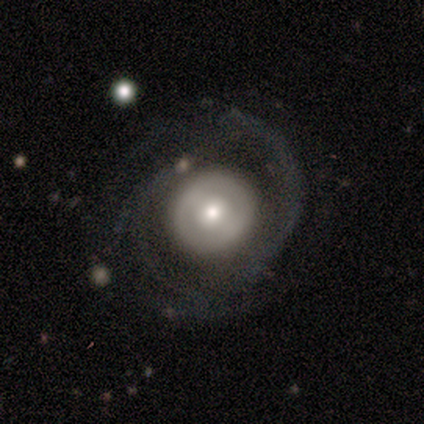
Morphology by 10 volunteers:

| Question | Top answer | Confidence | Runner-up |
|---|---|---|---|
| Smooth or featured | featured or disk | 80% | smooth (20%) |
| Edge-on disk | no | 100% | — |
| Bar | no | 75% | strong (12%) |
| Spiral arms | yes | 50% | tied: no (50%) |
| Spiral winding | tight | 75% | medium (25%) |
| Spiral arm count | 2 | 50% | tied: more than 4 (50%) |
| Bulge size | moderate | 38% | tied: small (38%) |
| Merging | none | 60% | minor disturbance (30%) |